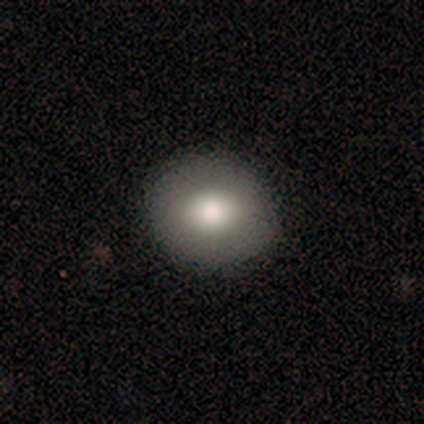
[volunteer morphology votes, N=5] Smooth or featured: smooth — 100%
How rounded: round — 100%
Merging: none — 60% (minor disturbance — 40%)